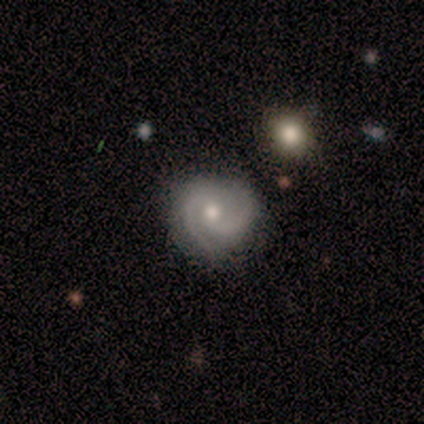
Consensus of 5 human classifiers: This appears to be a featured or disk galaxy (100%) with no bar (80%), 2 (60%) medium (80%) spiral arms (100%) and a moderate central bulge (40%, tied with small). Merging: none (100%).